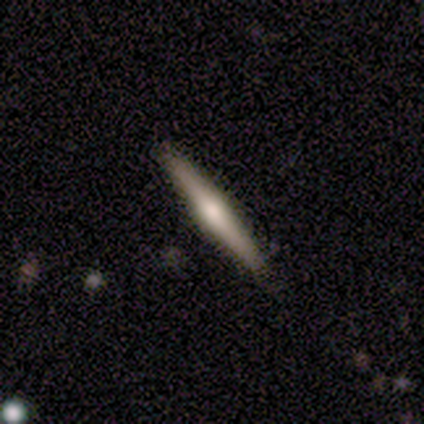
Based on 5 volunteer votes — featured or disk 80%, smooth 20%, star or artifact 0%. Down the decision tree: edge-on disk — yes (100%); edge-on bulge — rounded (100%); merging — none (60%).